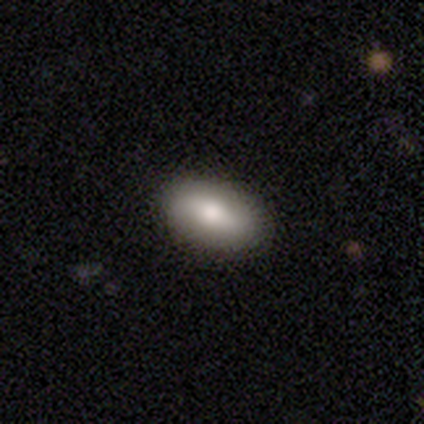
A smooth galaxy with no disk features (72%) that is in between round and cigar-shaped (97%).

Vote fractions:
- Smooth or featured? smooth: 72% / featured or disk: 18% / star or artifact: 9%
- How rounded? in between: 97% / cigar-shaped: 3% / round: 0%
- Merging? none: 84% / minor disturbance: 14% / merger: 3% / major disturbance: 0%